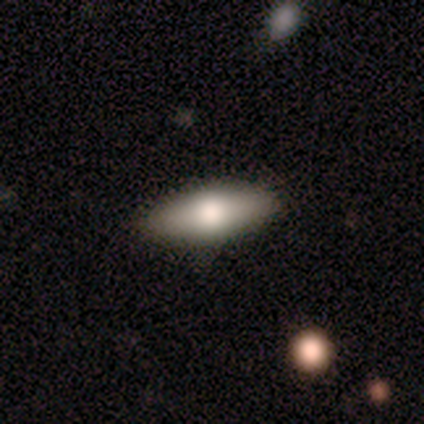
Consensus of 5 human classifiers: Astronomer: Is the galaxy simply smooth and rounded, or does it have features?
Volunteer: smooth — 80%.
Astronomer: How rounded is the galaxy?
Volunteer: in between — 100%.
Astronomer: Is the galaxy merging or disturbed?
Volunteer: none — 80%.